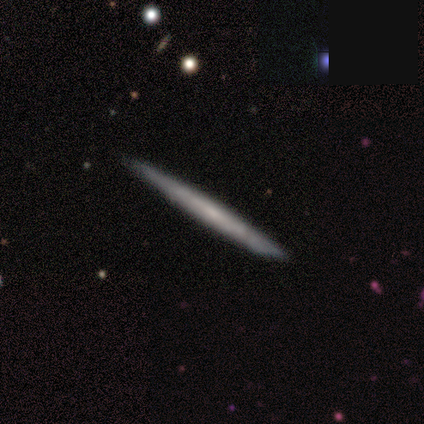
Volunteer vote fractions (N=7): featured or disk 57%, smooth 43%, star or artifact 0%. Down the decision tree: edge-on disk — yes (75%); edge-on bulge — none (100%); merging — none (100%).